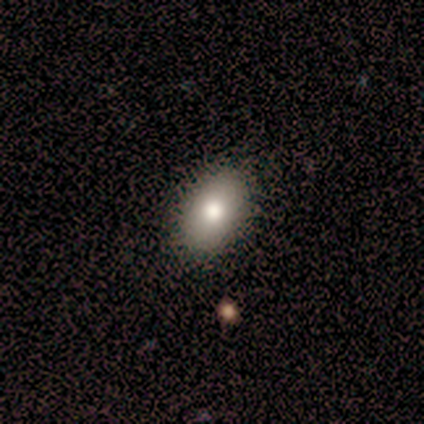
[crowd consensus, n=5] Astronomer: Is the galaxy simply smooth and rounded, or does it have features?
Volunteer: smooth — 100%.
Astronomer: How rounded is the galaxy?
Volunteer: in between — 80%.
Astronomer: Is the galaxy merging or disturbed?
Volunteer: none — 80%.